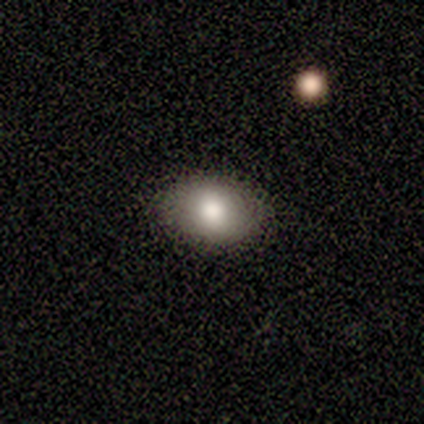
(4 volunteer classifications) smooth-or-featured: smooth: 75% | featured or disk: 25% | star or artifact: 0%
  how-rounded: in between: 67% | round: 33% | cigar-shaped: 0%
  merging: none: 100% | minor disturbance: 0% | major disturbance: 0% | merger: 0%